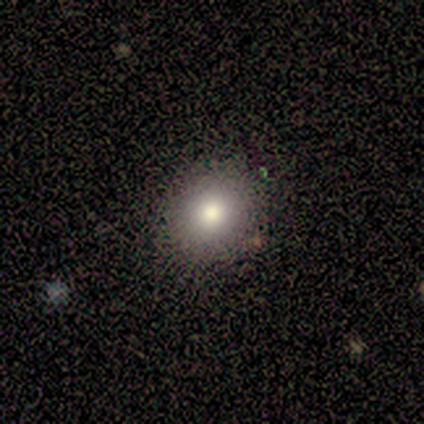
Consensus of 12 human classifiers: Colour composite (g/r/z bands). It shows a smooth galaxy with no disk features (75%) that is round (67%). Merging: none (100%).